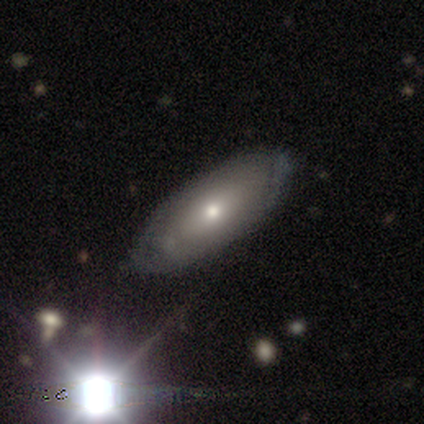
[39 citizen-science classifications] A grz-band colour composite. It shows a featured or disk galaxy (54%) with no bar (85%), no spiral arms (85%) and a moderate central bulge (62%). Merging: none (76%).